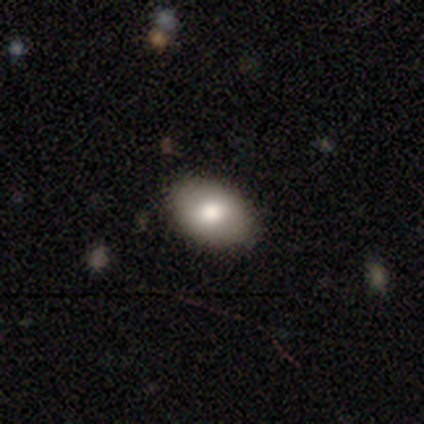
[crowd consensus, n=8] This appears to be a smooth galaxy with no disk features (88%) that is in between round and cigar-shaped (100%). Merging: none (100%).